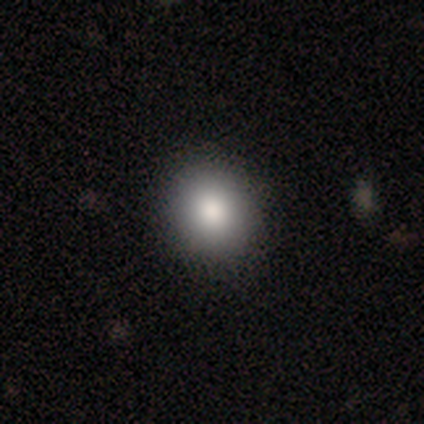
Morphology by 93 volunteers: This is likely a smooth galaxy (78%). How rounded: likely round (75%). Merging: clearly none (89%).